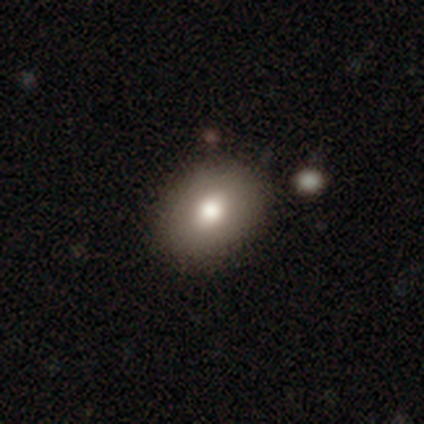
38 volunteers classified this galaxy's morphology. Overall: smooth (87%). How rounded: in between (61%; round 39%). Merging: none (89%).